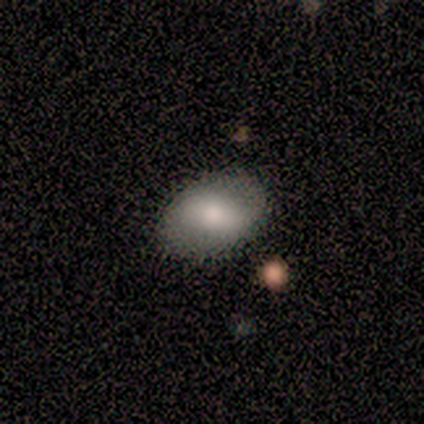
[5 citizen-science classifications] Smooth or featured: smooth — 80% (featured or disk — 20%)
How rounded: in between — 75% (round — 25%)
Merging: none — 60% (minor disturbance — 40%)